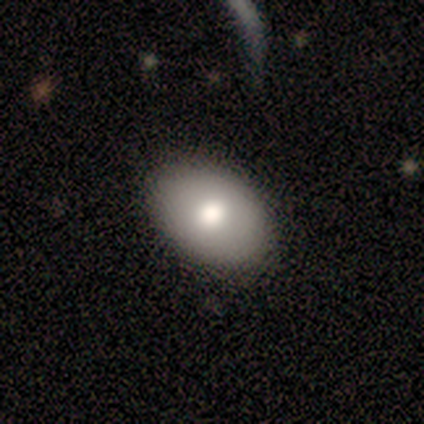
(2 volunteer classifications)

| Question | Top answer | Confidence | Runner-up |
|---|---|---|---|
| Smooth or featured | smooth | 50% | tied: featured or disk (50%) |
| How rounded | in between | 100% | — |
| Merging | none | 100% | — |